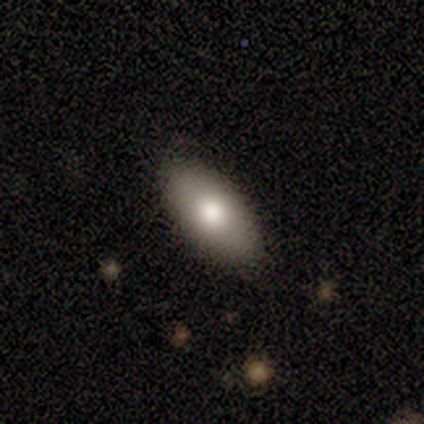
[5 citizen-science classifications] smooth 100%, featured or disk 0%, star or artifact 0%. Down the decision tree: how rounded — in between (100%); merging — none (100%).